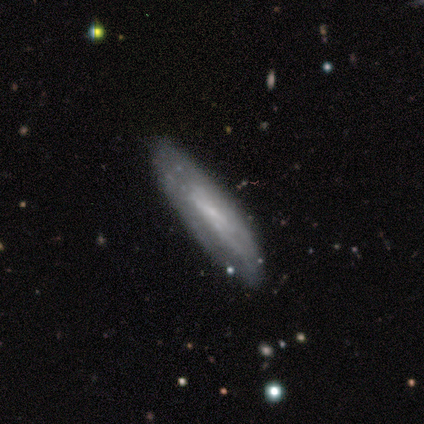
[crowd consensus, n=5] smooth_or_featured: featured or disk (p=0.80) [alt: star or artifact p=0.20]
disk_edge_on: yes (p=0.50) [tied with: no p=0.50]
edge_on_bulge: none (p=0.50) [tied with: rounded p=0.50]
merging: none (p=1.00)